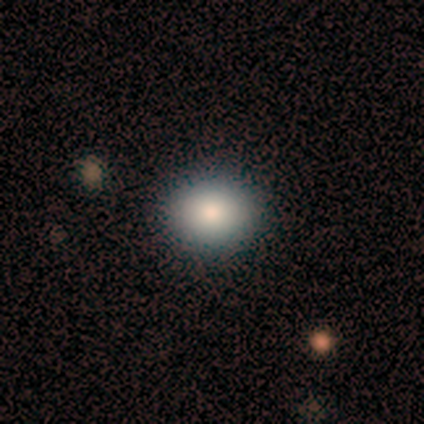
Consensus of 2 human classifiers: Overall: smooth (50%, tied with featured or disk). How rounded: round (100%). Merging: none (100%).